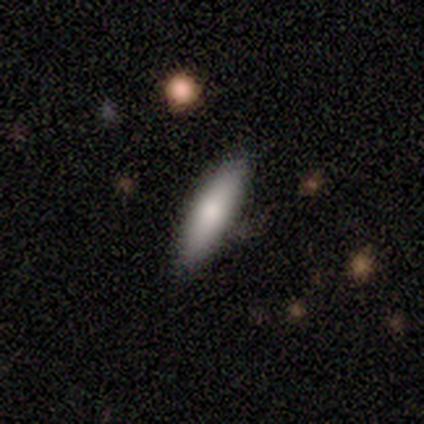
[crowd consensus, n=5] Smooth or featured? smooth (80%)
How rounded? cigar-shaped (100%)
Merging? none (50%)